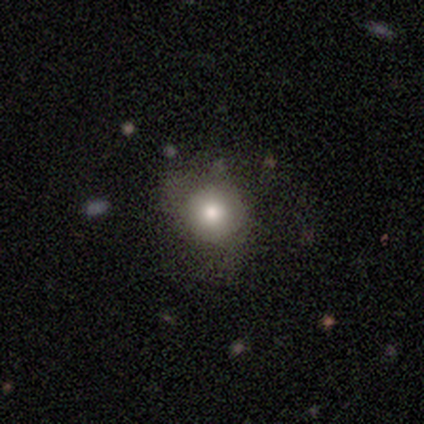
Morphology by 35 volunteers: Overall: smooth (80%). How rounded: round (86%). Merging: none (61%; minor disturbance 23%).